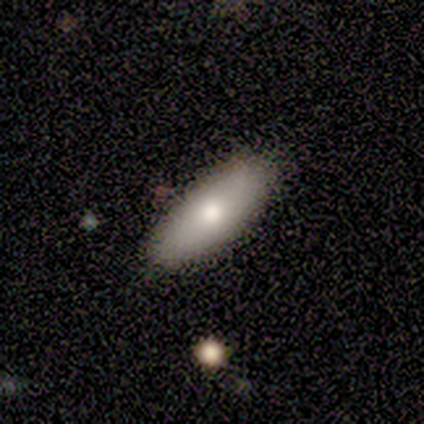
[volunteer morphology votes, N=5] type=smooth (100%); roundness=in between (60%); merging=none (80%).